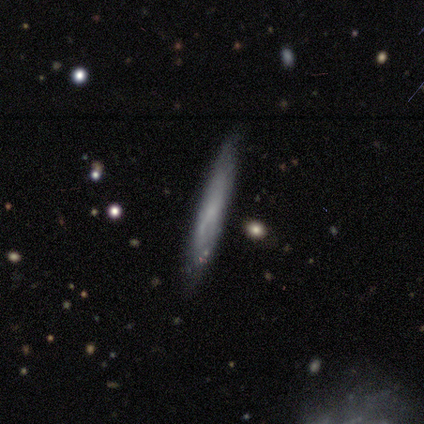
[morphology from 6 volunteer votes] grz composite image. It shows a smooth galaxy with no disk features (67%) that is cigar-shaped (100%). Merging: none (100%).